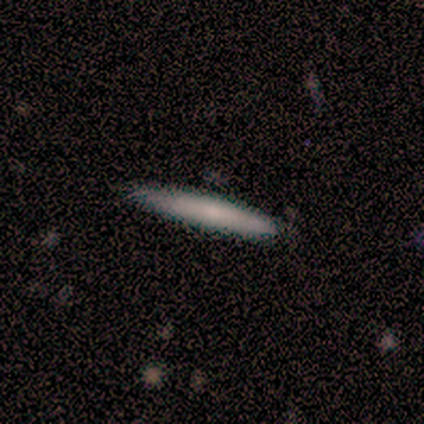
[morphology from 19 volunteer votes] Smooth or featured?
  - smooth: 79% *
  - featured or disk: 16%
  - star or artifact: 5%
How rounded?
  - cigar-shaped: 87% *
  - in between: 13%
  - round: 0%
Merging?
  - none: 83% *
  - minor disturbance: 17%
  - major disturbance: 0%
  - merger: 0%